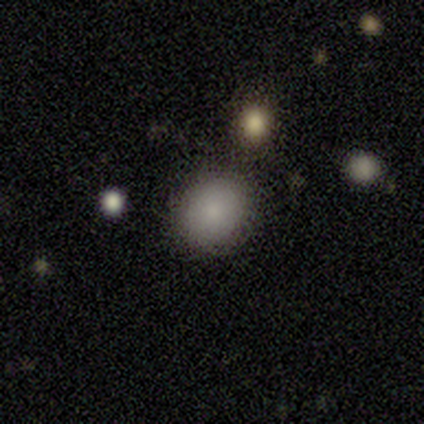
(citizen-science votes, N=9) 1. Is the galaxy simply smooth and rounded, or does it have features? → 78% smooth, 11% featured or disk, 11% star or artifact.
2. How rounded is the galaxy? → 71% in between, 29% round, 0% cigar-shaped.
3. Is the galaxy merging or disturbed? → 75% none, 12% minor disturbance, 12% major disturbance, 0% merger.